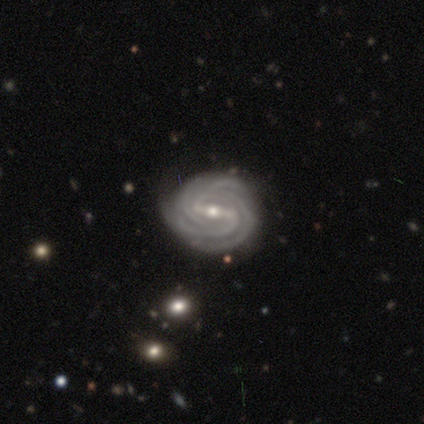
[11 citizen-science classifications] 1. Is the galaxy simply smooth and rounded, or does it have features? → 100% featured or disk, 0% smooth, 0% star or artifact.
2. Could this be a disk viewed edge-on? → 91% no, 9% yes.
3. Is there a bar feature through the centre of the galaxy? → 50% strong, 30% weak, 20% no.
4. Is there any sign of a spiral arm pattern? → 100% yes, 0% no.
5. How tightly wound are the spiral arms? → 80% tight, 20% medium, 0% loose.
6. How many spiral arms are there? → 30% 3 (tied), 30% 4 (tied), 30% more than 4 (tied), 10% can't tell, 0% 1, 0% 2.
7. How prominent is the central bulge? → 90% small, 10% moderate, 0% dominant, 0% large, 0% none.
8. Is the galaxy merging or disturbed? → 73% none, 18% minor disturbance, 9% major disturbance, 0% merger.